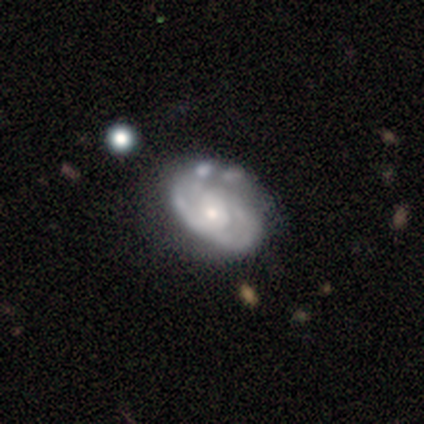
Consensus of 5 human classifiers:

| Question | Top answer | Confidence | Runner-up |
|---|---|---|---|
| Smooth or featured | featured or disk | 100% | — |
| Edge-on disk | no | 100% | — |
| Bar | no | 100% | — |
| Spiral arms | yes | 100% | — |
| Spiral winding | tight | 80% | loose (20%) |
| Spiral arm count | can't tell | 60% | 2 (20%) |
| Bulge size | moderate | 80% | small (20%) |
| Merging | none | 80% | minor disturbance (20%) |